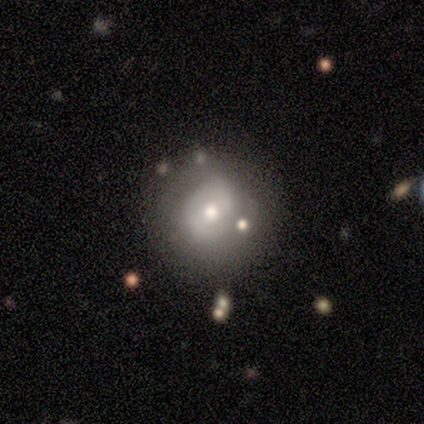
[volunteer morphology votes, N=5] type=featured or disk (60%); edge-on=no (100%); bar=no (100%); spiral arms=yes (67%); winding=tight (100%); arm count=2 (50%, tied with can't tell); bulge=moderate (67%); merging=none (60%).